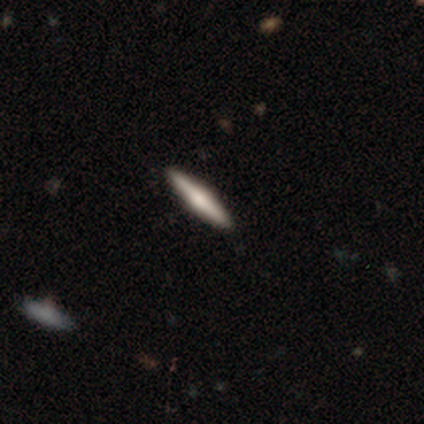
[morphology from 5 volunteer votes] Smooth or featured? 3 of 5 (60%) said featured or disk. Edge-on disk? 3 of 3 (100%) said yes. Edge-on bulge? 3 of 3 (100%) said rounded. Merging? 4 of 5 (80%) said none.